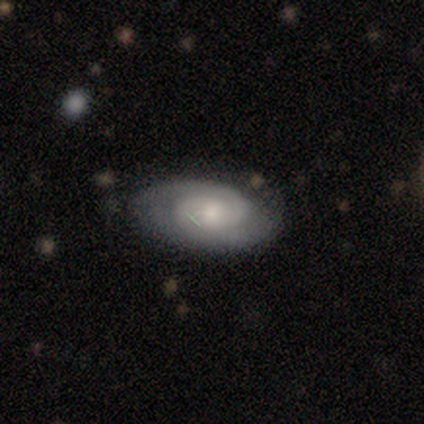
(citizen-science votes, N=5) smooth_or_featured: featured or disk (p=0.60) [alt: smooth p=0.20]
disk_edge_on: no (p=1.00)
bar: no (p=0.67) [alt: weak p=0.33]
has_spiral_arms: yes (p=0.67) [alt: no p=0.33]
spiral_winding: tight (p=0.50) [tied with: medium p=0.50]
spiral_arm_count: 2 (p=1.00)
bulge_size: moderate (p=0.67) [alt: small p=0.33]
merging: none (p=0.50) [alt: minor disturbance p=0.25]